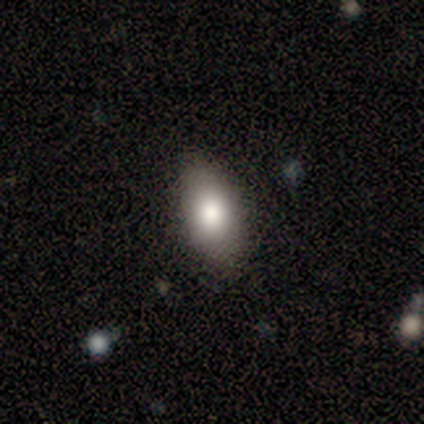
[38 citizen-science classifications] Smooth or featured? smooth (76%)
How rounded? in between (93%)
Merging? none (82%)